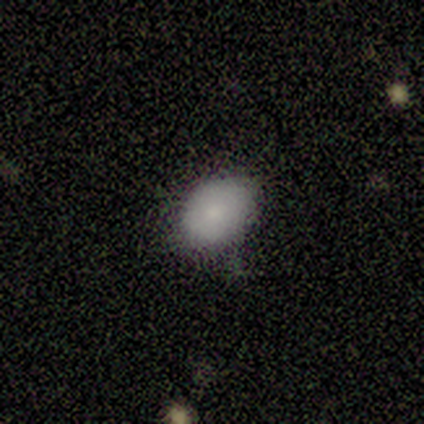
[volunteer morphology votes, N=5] Overall: smooth (100%). How rounded: in between (100%). Merging: none (60%; minor disturbance 40%).